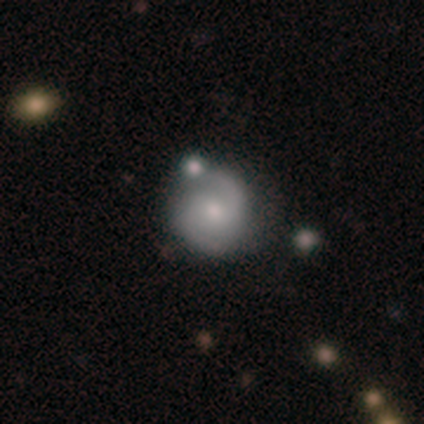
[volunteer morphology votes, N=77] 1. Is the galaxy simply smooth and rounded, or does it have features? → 81% featured or disk, 17% smooth, 3% star or artifact.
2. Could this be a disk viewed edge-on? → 98% no, 2% yes.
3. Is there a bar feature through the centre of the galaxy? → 57% no, 41% weak, 2% strong.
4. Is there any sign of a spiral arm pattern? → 97% yes, 3% no.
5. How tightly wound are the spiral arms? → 64% medium, 19% loose, 17% tight.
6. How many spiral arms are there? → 93% 2, 5% can't tell, 2% 1, 0% 3, 0% 4, 0% more than 4.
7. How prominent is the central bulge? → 49% moderate, 46% small, 2% dominant, 2% large, 2% none.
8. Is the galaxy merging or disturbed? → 37% none, 13% merger, 8% minor disturbance, 3% major disturbance.